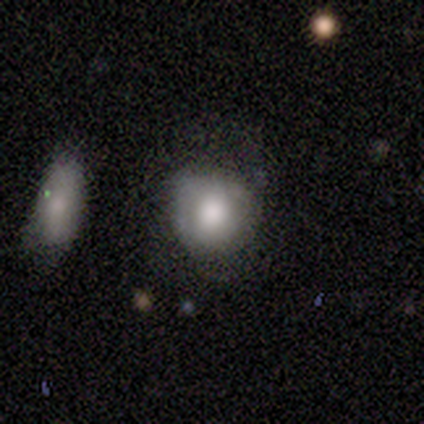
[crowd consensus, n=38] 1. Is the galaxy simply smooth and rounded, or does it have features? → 74% smooth, 21% featured or disk, 5% star or artifact.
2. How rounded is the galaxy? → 82% round, 18% in between, 0% cigar-shaped.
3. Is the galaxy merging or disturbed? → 47% none, 44% minor disturbance, 6% merger, 3% major disturbance.